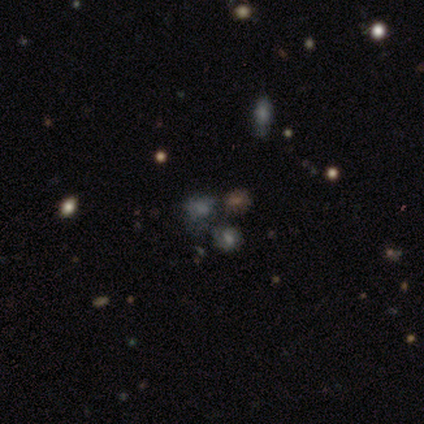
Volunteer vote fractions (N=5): Morphology: type=smooth (80%); roundness=round (75%); merging=none (60%).